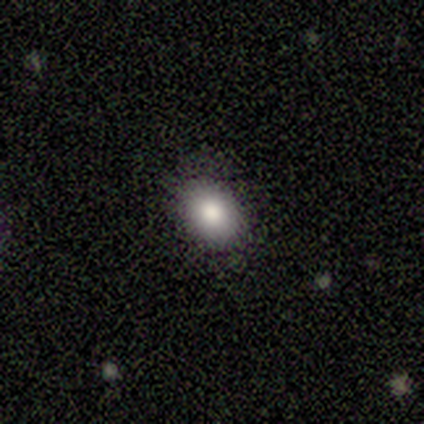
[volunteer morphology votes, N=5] Smooth or featured? smooth (40%, tied with featured or disk)
How rounded? round (50%, tied with in between)
Merging? none (100%)